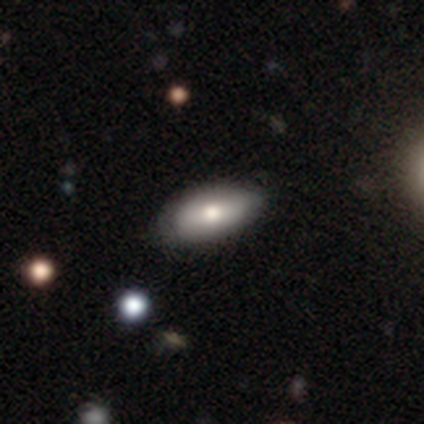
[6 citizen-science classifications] A smooth galaxy with no disk features (67%) that is in between round and cigar-shaped (100%). Merging: none (83%).